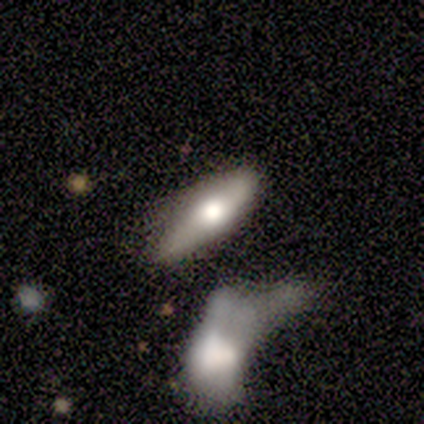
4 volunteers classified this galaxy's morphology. Overall: featured or disk (75%). Edge-on disk: yes (100%). Edge-on bulge: rounded (100%). Merging: none (25%, tied with minor disturbance, major disturbance and merger).